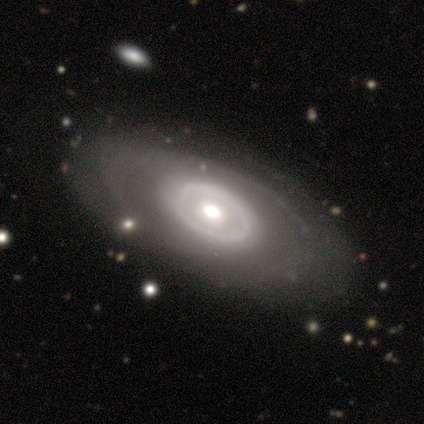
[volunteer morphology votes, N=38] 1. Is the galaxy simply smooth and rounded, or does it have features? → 82% featured or disk, 16% smooth, 3% star or artifact.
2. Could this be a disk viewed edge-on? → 94% no, 6% yes.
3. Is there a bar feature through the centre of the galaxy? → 79% no, 14% weak, 7% strong.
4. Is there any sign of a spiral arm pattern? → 55% yes, 45% no.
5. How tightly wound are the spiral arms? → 75% tight, 19% medium, 6% loose.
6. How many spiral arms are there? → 81% can't tell, 6% 1, 6% 2, 6% 4, 0% 3, 0% more than 4.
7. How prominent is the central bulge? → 62% moderate, 28% large, 10% small, 0% dominant, 0% none.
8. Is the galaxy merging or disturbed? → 78% none, 14% minor disturbance, 8% major disturbance, 0% merger.